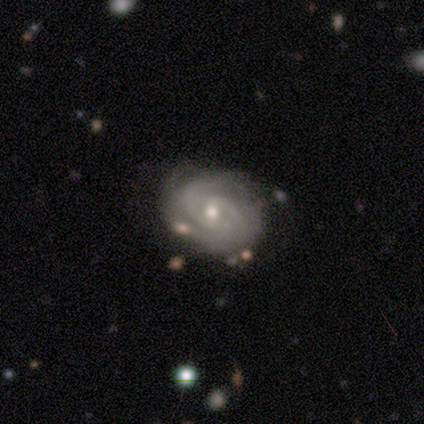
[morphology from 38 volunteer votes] Smooth or featured: featured or disk — 95% (smooth — 5%)
Edge-on disk: no — 100%
Bar: weak — 47% (tied with no — 47%)
Spiral arms: yes — 97% (no — 3%)
Spiral winding: tight — 69% (medium — 23%)
Spiral arm count: 2 — 46% (3 — 26%)
Bulge size: moderate — 56% (small — 39%)
Merging: none — 66% (minor disturbance — 16%)